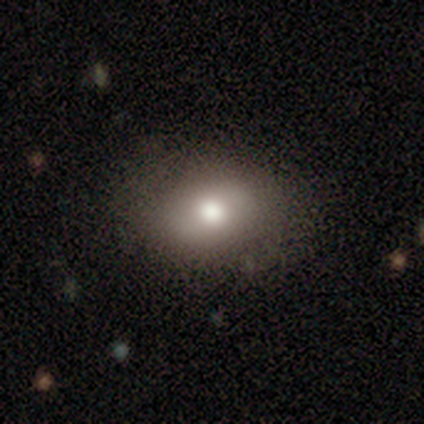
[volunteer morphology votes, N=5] Smooth or featured: smooth — 100%
How rounded: in between — 80% (round — 20%)
Merging: none — 80% (major disturbance — 20%)